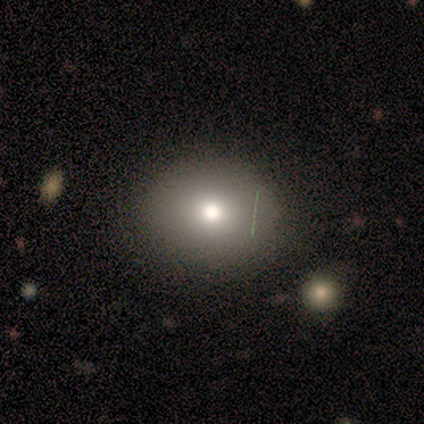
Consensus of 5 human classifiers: This appears to be a smooth galaxy with no disk features (100%) that is round (80%). Merging: none (100%).